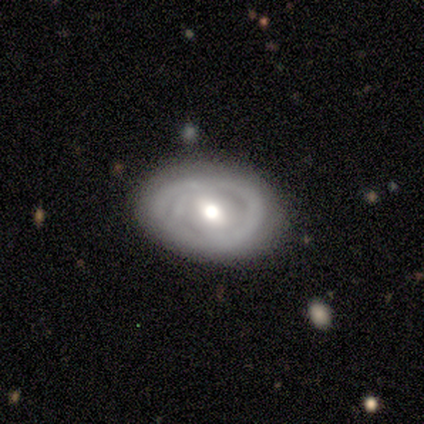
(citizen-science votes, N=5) Smooth or featured? featured or disk (80%)
Edge-on disk? no (100%)
Bar? no (100%)
Spiral arms? yes (50%, tied with no)
Spiral winding? medium (50%, tied with loose)
Spiral arm count? 3 (50%, tied with can't tell)
Bulge size? moderate (100%)
Merging? none (80%)